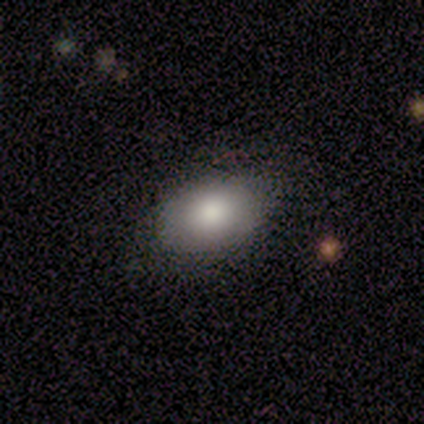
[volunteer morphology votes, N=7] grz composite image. It shows a smooth galaxy with no disk features (100%) that is in between round and cigar-shaped (71%). Merging: none (71%).